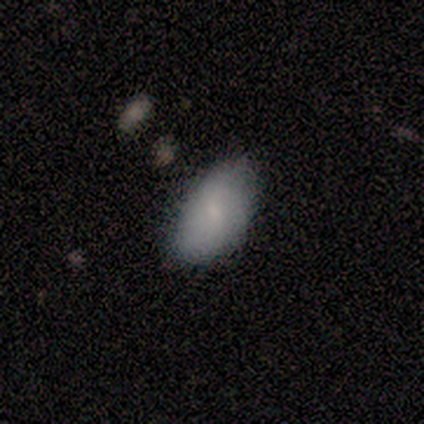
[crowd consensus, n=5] A smooth galaxy with no disk features (100%) that is in between round and cigar-shaped (100%). Merging: none (60%).